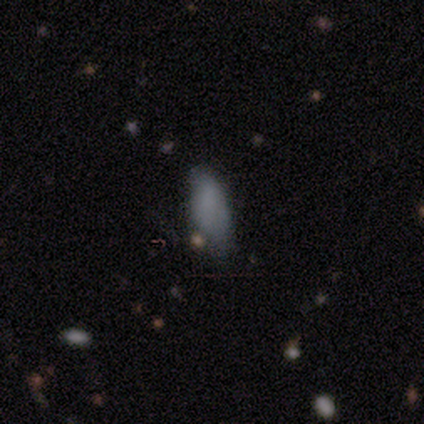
This is clearly a smooth galaxy (100%). How rounded: clearly in between (100%). Merging: likely minor disturbance (67%).